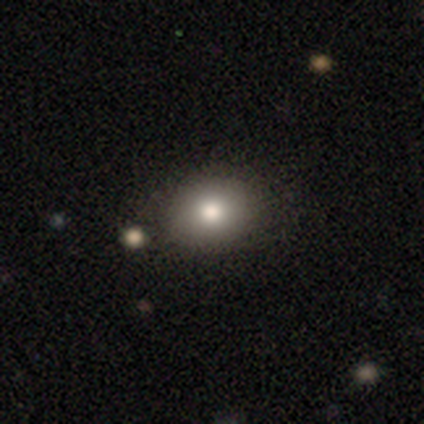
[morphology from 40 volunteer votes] Smooth or featured? smooth (88%)
How rounded? in between (51%)
Merging? none (92%)